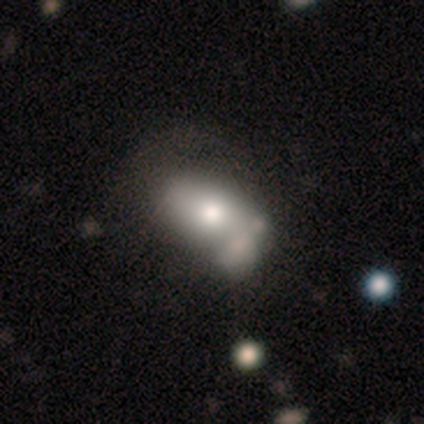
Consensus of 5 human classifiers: Overall: smooth (60%; featured or disk 40%). How rounded: in between (100%). Merging: merger (60%; minor disturbance 40%).